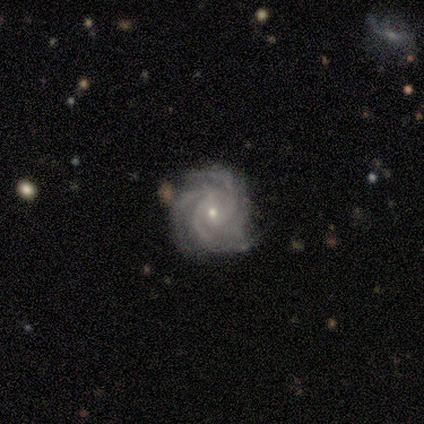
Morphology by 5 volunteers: type=featured or disk (100%); edge-on=no (100%); bar=no (100%); spiral arms=yes (100%); winding=tight (100%); arm count=3 (60%); bulge=small (100%); merging=none (80%).